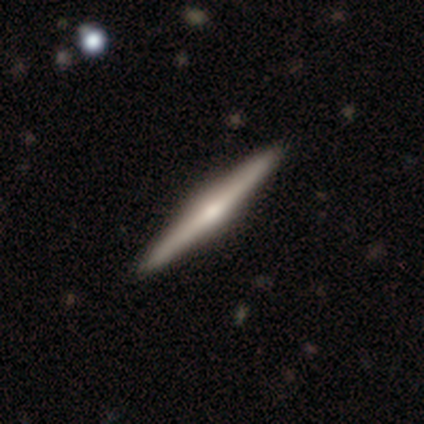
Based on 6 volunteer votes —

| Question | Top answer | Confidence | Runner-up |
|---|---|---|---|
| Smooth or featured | featured or disk | 100% | — |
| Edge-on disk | yes | 100% | — |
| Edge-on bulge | rounded | 50% | boxy (33%) |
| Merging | none | 100% | — |